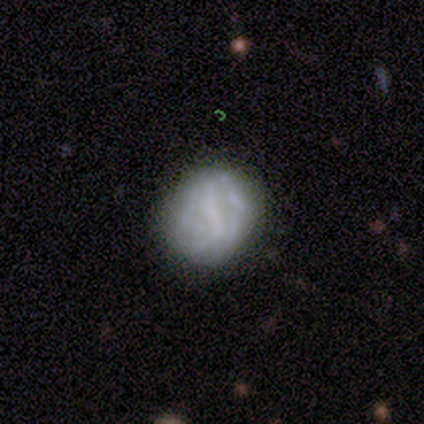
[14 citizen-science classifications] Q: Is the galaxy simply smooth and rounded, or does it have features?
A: featured or disk — 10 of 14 (71%).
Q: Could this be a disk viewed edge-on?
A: no — 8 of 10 (80%).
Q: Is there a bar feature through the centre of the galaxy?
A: strong — 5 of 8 (62%).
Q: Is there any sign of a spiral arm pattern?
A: yes — 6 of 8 (75%).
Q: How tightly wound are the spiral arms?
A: tight — 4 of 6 (67%).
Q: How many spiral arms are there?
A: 2 — 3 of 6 (50%).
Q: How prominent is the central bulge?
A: none — 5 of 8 (62%).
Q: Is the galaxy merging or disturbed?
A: none — 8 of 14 (57%).